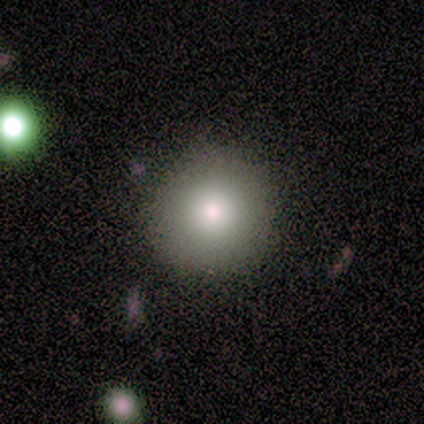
Smooth or featured: smooth — 60% (star or artifact — 40%)
How rounded: round — 100%
Merging: none — 67% (merger — 33%)